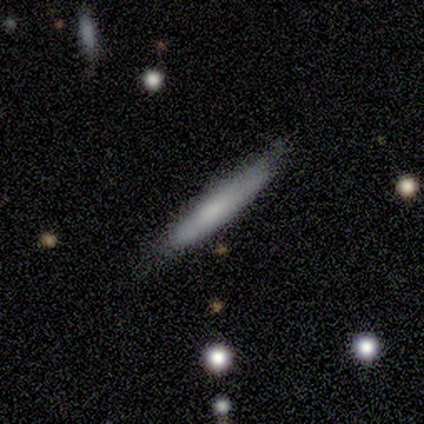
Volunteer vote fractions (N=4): Overall: smooth (100%). How rounded: cigar-shaped (100%). Merging: none (75%).